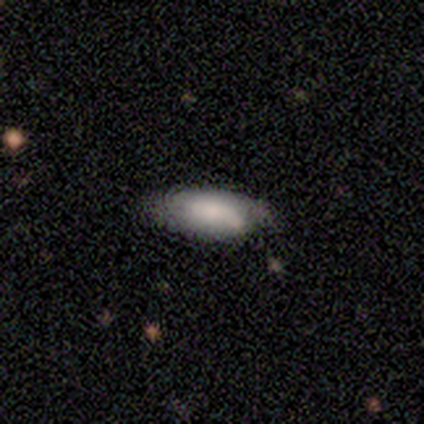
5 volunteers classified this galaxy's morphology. smooth_or_featured: smooth (p=0.60) [alt: featured or disk p=0.20]
how_rounded: in between (p=1.00)
merging: none (p=0.75) [alt: minor disturbance p=0.25]